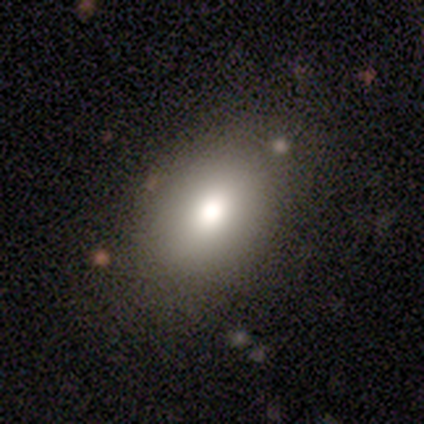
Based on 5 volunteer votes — smooth 60%, star or artifact 40%, featured or disk 0%. Down the decision tree: how rounded — in between (67%); merging — none (100%).